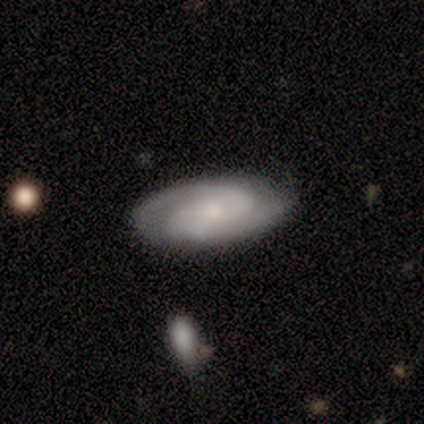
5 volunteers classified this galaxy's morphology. Smooth or featured? featured or disk (100%)
Edge-on disk? no (100%)
Bar? no (80%)
Spiral arms? yes (100%)
Spiral winding? tight (60%)
Spiral arm count? 2 (100%)
Bulge size? moderate (40%, tied with small)
Merging? none (100%)